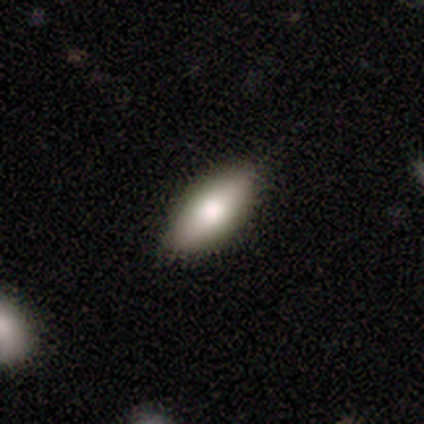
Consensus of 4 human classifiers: Smooth or featured? smooth (75%)
How rounded? in between (100%)
Merging? none (75%)